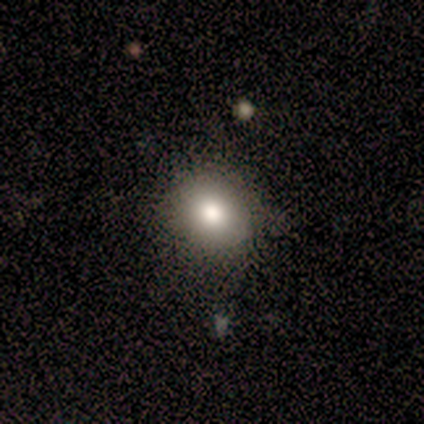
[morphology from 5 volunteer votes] A smooth galaxy with no disk features (60%) that is round (100%).

Vote fractions:
- Smooth or featured? smooth: 60% / featured or disk: 20% / star or artifact: 20%
- How rounded? round: 100% / in between: 0% / cigar-shaped: 0%
- Merging? none: 100% / minor disturbance: 0% / major disturbance: 0% / merger: 0%